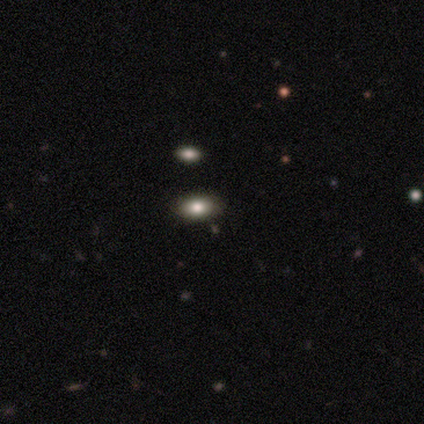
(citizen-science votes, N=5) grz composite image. It shows a smooth galaxy with no disk features (100%) that is in between round and cigar-shaped (80%). Merging: none (80%).